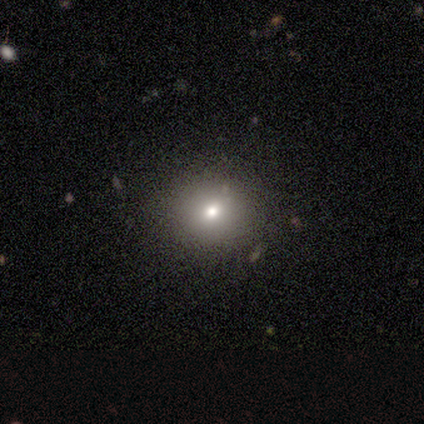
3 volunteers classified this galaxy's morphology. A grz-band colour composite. It shows a smooth galaxy with no disk features (100%) that is round (100%). Merging: none (100%).